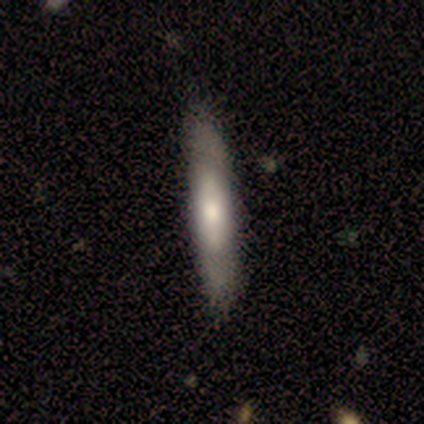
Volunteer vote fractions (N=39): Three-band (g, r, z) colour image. It shows a smooth galaxy with no disk features (62%) that is cigar-shaped (62%). Merging: none (63%).